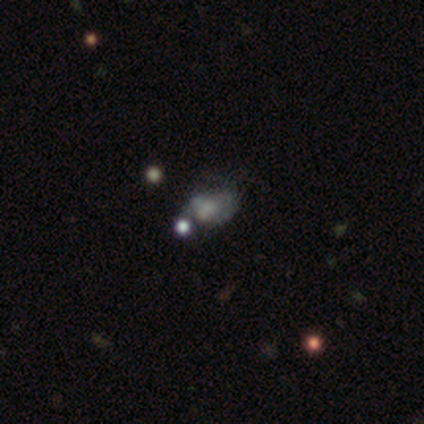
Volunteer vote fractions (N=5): smooth_or_featured: featured or disk (p=0.80) [alt: smooth p=0.20]
disk_edge_on: no (p=1.00)
bar: no (p=1.00)
has_spiral_arms: yes (p=0.50) [tied with: no p=0.50]
spiral_winding: tight (p=1.00)
spiral_arm_count: can't tell (p=1.00)
bulge_size: moderate (p=0.50) [alt: large p=0.25]
merging: none (p=0.60) [alt: major disturbance p=0.20]